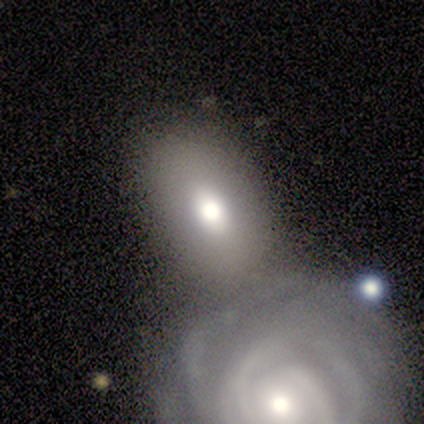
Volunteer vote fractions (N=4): Smooth or featured: smooth — 50% (tied with featured or disk — 50%)
How rounded: in between — 100%
Merging: merger — 75% (none — 25%)